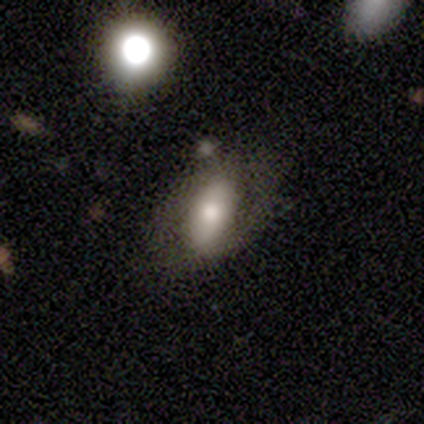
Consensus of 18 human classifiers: smooth-or-featured: smooth: 67% | featured or disk: 33% | star or artifact: 0%
  how-rounded: in between: 83% | round: 8% | cigar-shaped: 8%
  merging: none: 67% | minor disturbance: 17% | major disturbance: 11% | merger: 6%